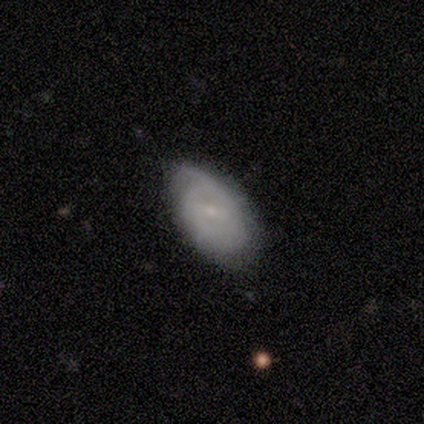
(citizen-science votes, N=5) smooth_or_featured: smooth (p=0.60) [alt: featured or disk p=0.40]
how_rounded: in between (p=1.00)
merging: none (p=0.80) [alt: minor disturbance p=0.20]